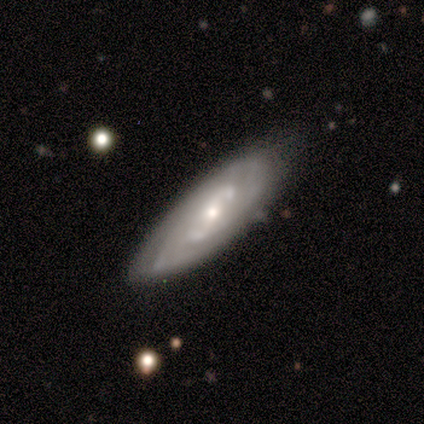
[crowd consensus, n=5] Volunteers were most divided on "bar" (2-way tie): weak: 50%, no: 50%, strong: 0%; "spiral winding" (2-way tie): tight: 50%, medium: 50%, loose: 0%; "bulge size" (2-way tie): moderate: 50%, small: 50%, dominant: 0%, large: 0%, none: 0%. More confident: spiral arms — yes (100%); spiral arm count — 2 (100%); merging — none (100%); edge-on disk — no (67%); smooth or featured — featured or disk (60%).